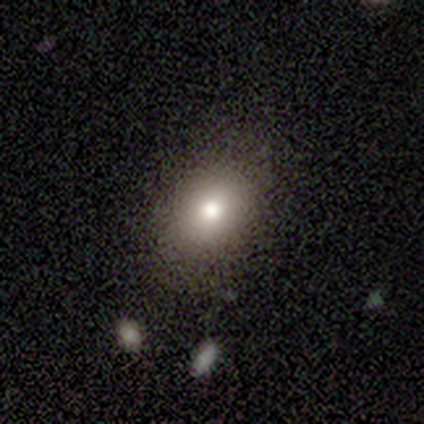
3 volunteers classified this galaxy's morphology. A smooth galaxy with no disk features (100%) that is in between round and cigar-shaped (100%). Merging: minor disturbance (67%).